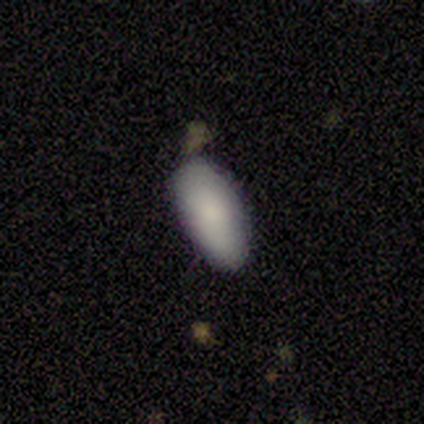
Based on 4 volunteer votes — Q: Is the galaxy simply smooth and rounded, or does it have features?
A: smooth — 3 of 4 (75%).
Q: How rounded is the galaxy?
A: in between — 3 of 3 (100%).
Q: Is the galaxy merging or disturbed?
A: none — 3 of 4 (75%).